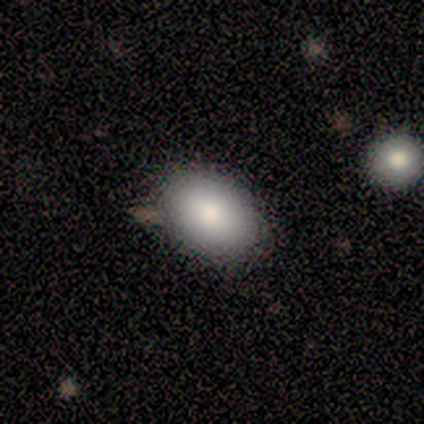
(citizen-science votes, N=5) This appears to be a smooth galaxy with no disk features (60%) that is in between round and cigar-shaped (100%). Merging: none (100%).